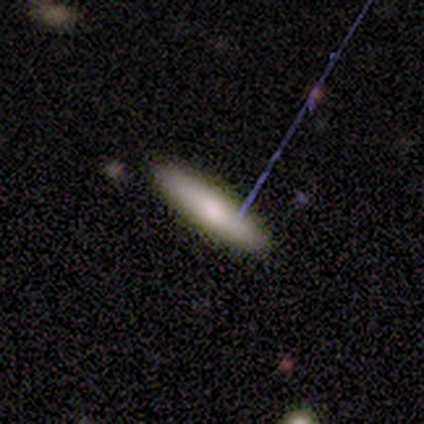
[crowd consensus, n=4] smooth-or-featured: smooth: 100% | featured or disk: 0% | star or artifact: 0%
  how-rounded: in between: 50% (tied) | cigar-shaped: 50% (tied) | round: 0%
  merging: none: 100% | minor disturbance: 0% | major disturbance: 0% | merger: 0%